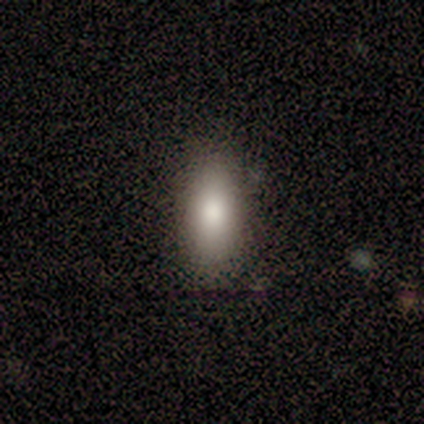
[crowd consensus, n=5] Smooth or featured?
  - smooth: 80% *
  - star or artifact: 20%
  - featured or disk: 0%
How rounded?
  - in between: 75% *
  - cigar-shaped: 25%
  - round: 0%
Merging?
  - none: 75% *
  - minor disturbance: 25%
  - major disturbance: 0%
  - merger: 0%